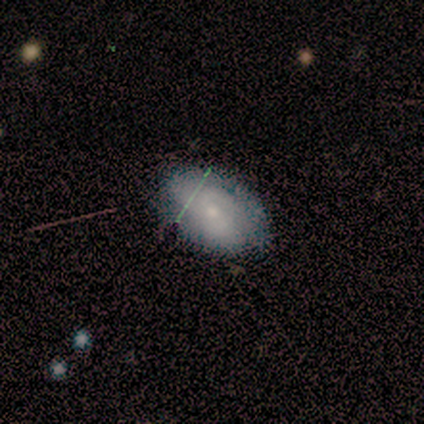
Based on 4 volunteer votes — Q: Smooth or featured?
A: smooth (75%); runner-up: featured or disk (25%)
Q: How rounded?
A: in between (100%)
Q: Merging?
A: none (75%); runner-up: minor disturbance (25%)